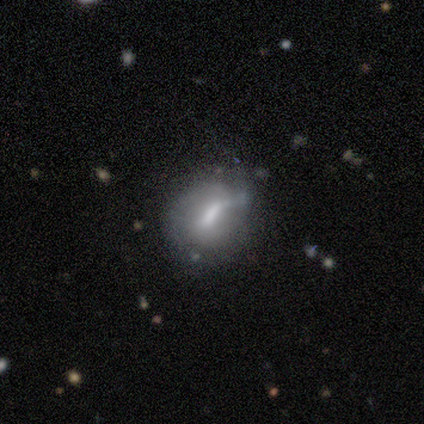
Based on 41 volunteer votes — Volunteers were most divided on "merging": minor disturbance: 45%, none: 37%, major disturbance: 11%, merger: 8%. Remaining: edge-on disk — no (100%); spiral arms — no (64%); smooth or featured — featured or disk (61%); bar — strong (52%); bulge size — moderate (40%).